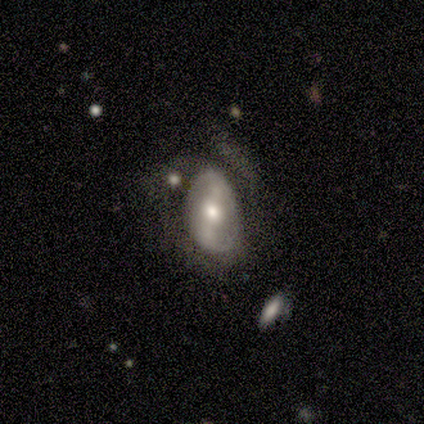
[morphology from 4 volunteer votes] Smooth or featured? 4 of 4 (100%) said featured or disk. Edge-on disk? 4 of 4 (100%) said no. Bar? 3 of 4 (75%) said strong. Spiral arms? 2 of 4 (50%, tied with no) said yes. Spiral winding? 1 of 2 (50%, tied with loose) said tight. Spiral arm count? 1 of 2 (50%, tied with 4) said 2. Bulge size? 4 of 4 (100%) said moderate. Merging? 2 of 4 (50%, tied with minor disturbance) said none.